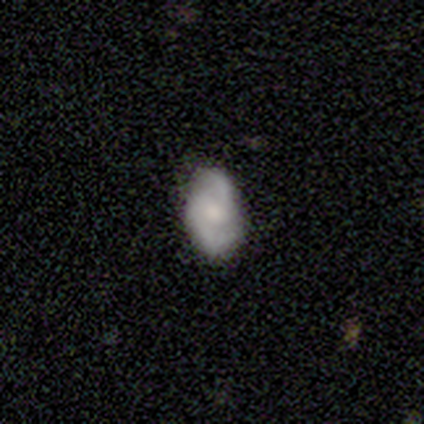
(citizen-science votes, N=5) Volunteers were most divided on "bulge size": small: 50%, moderate: 25%, none: 25%, dominant: 0%, large: 0%. More confident: edge-on disk — no (100%); spiral arms — yes (100%); spiral winding — medium (100%); spiral arm count — 2 (100%); smooth or featured — featured or disk (80%); merging — none (80%); bar — no (75%).